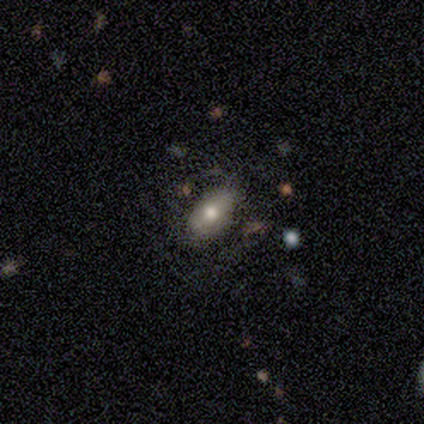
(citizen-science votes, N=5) A smooth galaxy with no disk features (80%) that is in between round and cigar-shaped (100%). Merging: minor disturbance (80%).